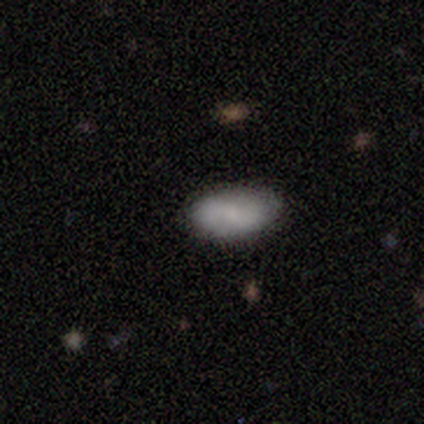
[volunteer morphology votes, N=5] smooth 100%, featured or disk 0%, star or artifact 0%. Down the decision tree: how rounded — in between (80%); merging — none (80%).